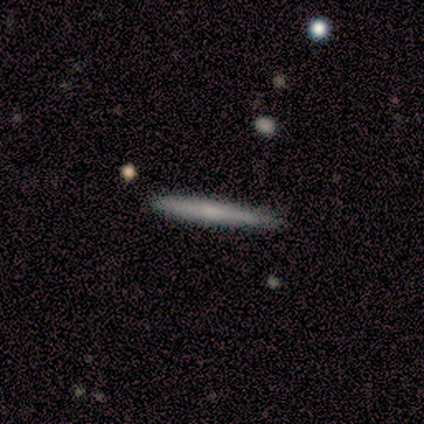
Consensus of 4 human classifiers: A smooth galaxy with no disk features (75%) that is cigar-shaped (100%).

Vote fractions:
- Smooth or featured? smooth: 75% / featured or disk: 25% / star or artifact: 0%
- How rounded? cigar-shaped: 100% / round: 0% / in between: 0%
- Merging? none: 100% / minor disturbance: 0% / major disturbance: 0% / merger: 0%